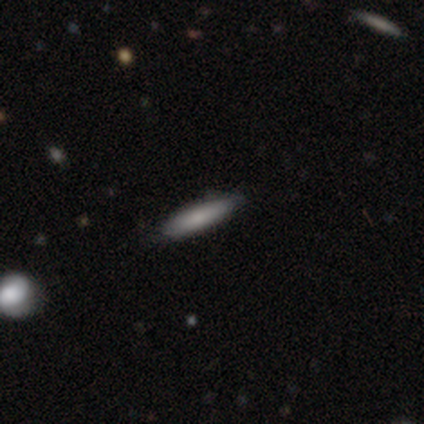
smooth 60%, featured or disk 20%, star or artifact 20%. Down the decision tree: how rounded — cigar-shaped (67%); merging — none (75%).